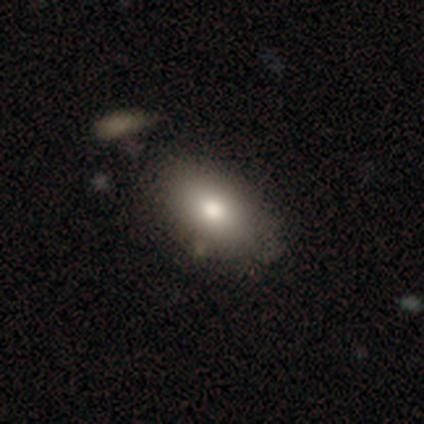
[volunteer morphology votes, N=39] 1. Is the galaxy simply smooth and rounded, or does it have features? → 85% smooth, 8% featured or disk, 8% star or artifact.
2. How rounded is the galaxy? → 97% in between, 3% round, 0% cigar-shaped.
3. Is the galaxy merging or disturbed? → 42% none, 11% minor disturbance, 6% merger, 0% major disturbance.